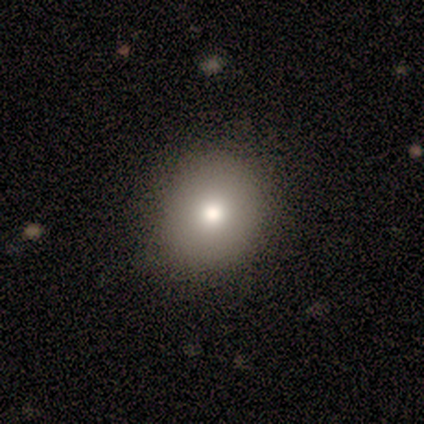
smooth 87%, featured or disk 8%, star or artifact 5%. Down the decision tree: how rounded — round (88%); merging — none (68%).